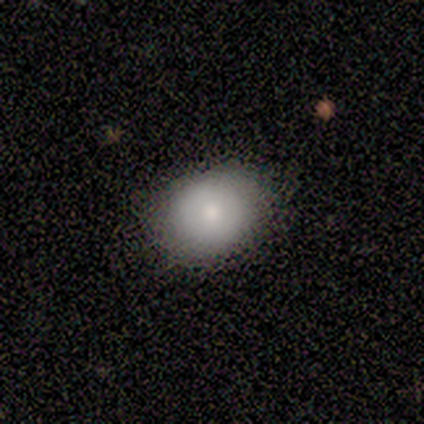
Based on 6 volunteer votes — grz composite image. It shows a smooth galaxy with no disk features (100%) that is round (83%). Merging: none (100%).